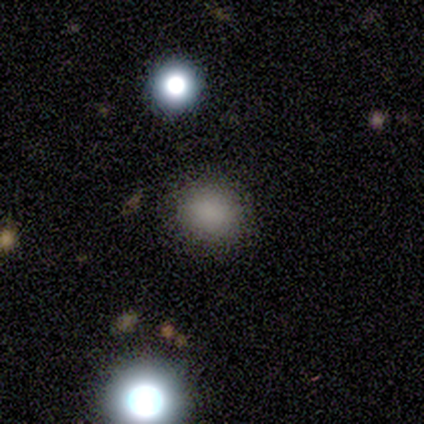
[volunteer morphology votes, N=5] Smooth or featured: smooth — 100%
How rounded: round — 60% (in between — 40%)
Merging: none — 80% (minor disturbance — 20%)